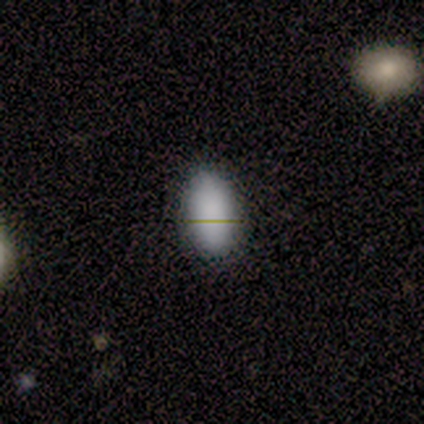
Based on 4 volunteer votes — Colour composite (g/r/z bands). It shows a smooth galaxy with no disk features (100%) that is in between round and cigar-shaped (100%). Merging: none (75%).